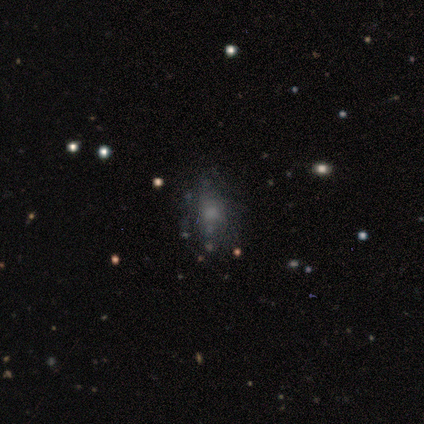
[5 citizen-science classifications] A smooth galaxy with no disk features (60%) that is in between round and cigar-shaped (67%).

Vote fractions:
- Smooth or featured? smooth: 60% / featured or disk: 20% / star or artifact: 20%
- How rounded? in between: 67% / round: 33% / cigar-shaped: 0%
- Merging? none: 50% (tied) / minor disturbance: 50% (tied) / major disturbance: 0% / merger: 0%